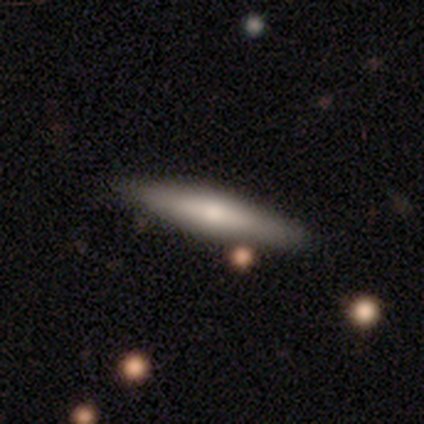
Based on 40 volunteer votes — A featured or disk galaxy (52%) viewed edge-on (86%) with a rounded central bulge (67%). Merging: none (72%).